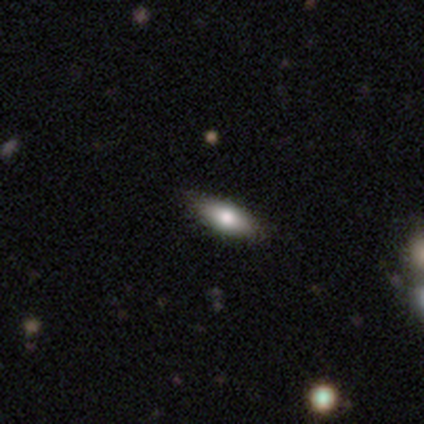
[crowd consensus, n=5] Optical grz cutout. It shows a smooth galaxy with no disk features (60%) that is in between round and cigar-shaped (100%). Merging: none (75%).